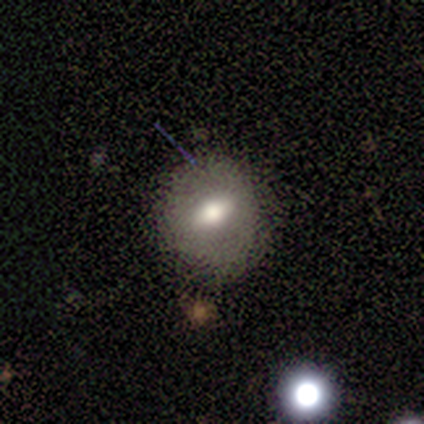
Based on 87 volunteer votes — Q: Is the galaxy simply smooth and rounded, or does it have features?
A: smooth — 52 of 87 (60%).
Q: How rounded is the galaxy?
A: round — 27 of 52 (52%).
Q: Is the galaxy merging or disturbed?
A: none — 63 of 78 (81%).